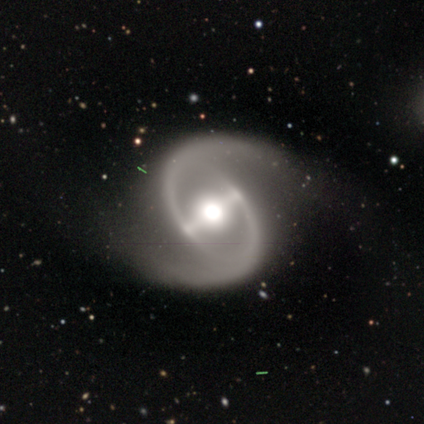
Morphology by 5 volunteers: A featured or disk galaxy (100%) with a strong bar (50%, tied with weak), 2 (100%) tight (50%, tied with medium) spiral arms (100%) and a moderate central bulge (75%). Merging: none (100%).